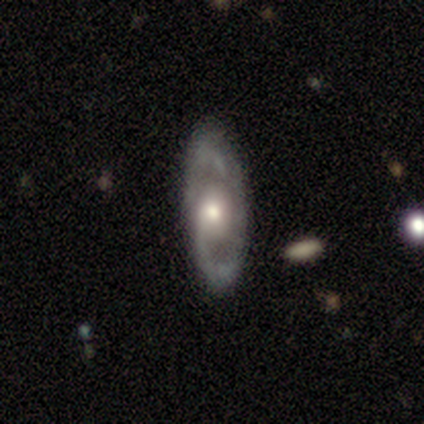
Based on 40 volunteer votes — Smooth or featured: featured or disk — 88% (smooth — 8%)
Edge-on disk: no — 91% (yes — 9%)
Bar: no — 78% (weak — 22%)
Spiral arms: yes — 84% (no — 16%)
Spiral winding: medium — 59% (tight — 22%)
Spiral arm count: 2 — 78% (1 — 11%)
Bulge size: moderate — 50% (large — 25%)
Merging: none — 89% (minor disturbance — 11%)